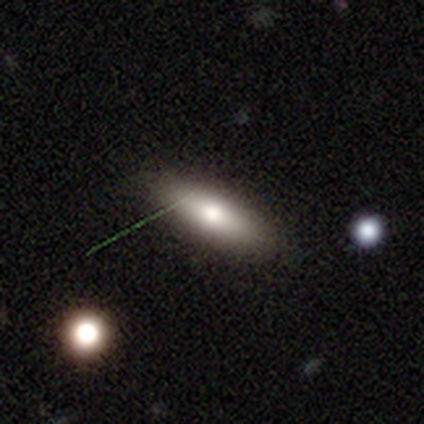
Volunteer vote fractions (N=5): smooth_or_featured: featured or disk (p=0.60) [alt: smooth p=0.20]
disk_edge_on: yes (p=1.00)
edge_on_bulge: rounded (p=1.00)
merging: none (p=0.75) [alt: minor disturbance p=0.25]